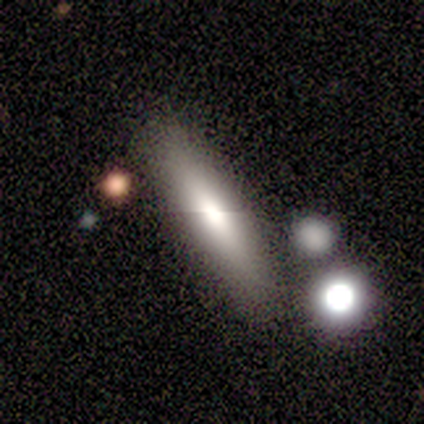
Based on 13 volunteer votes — Smooth or featured? 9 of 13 (69%) said smooth. How rounded? 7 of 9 (78%) said cigar-shaped. Merging? 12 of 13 (92%) said none.